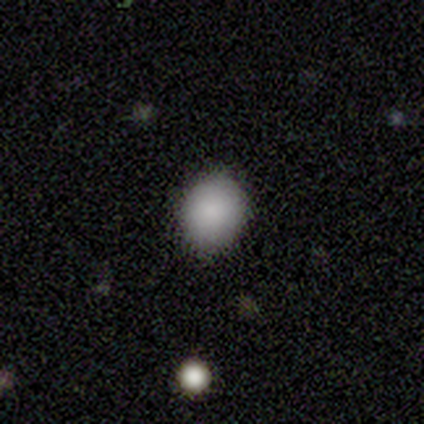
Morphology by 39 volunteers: smooth-or-featured: smooth: 90% | featured or disk: 5% | star or artifact: 5%
  how-rounded: round: 91% | in between: 9% | cigar-shaped: 0%
  merging: none: 97% | minor disturbance: 3% | major disturbance: 0% | merger: 0%